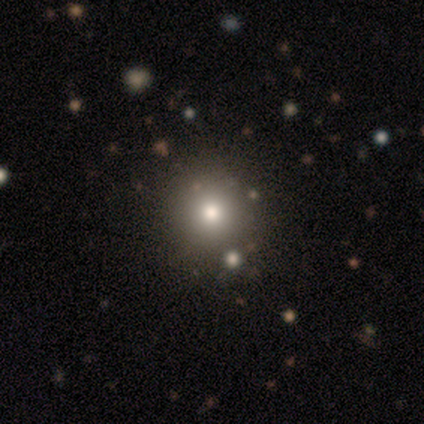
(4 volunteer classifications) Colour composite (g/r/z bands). It shows a smooth galaxy with no disk features (75%) that is round (100%). Merging: none (100%).